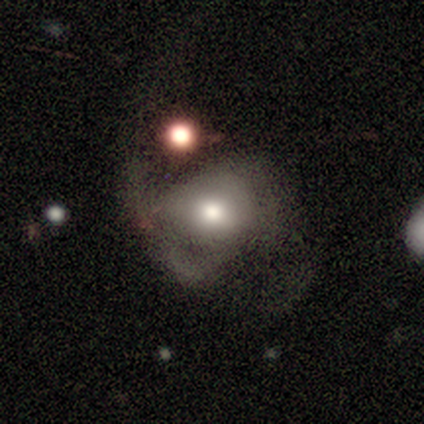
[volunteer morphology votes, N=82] This appears to be a smooth galaxy with no disk features (51%) that is round (52%). Merging: major disturbance (49%).